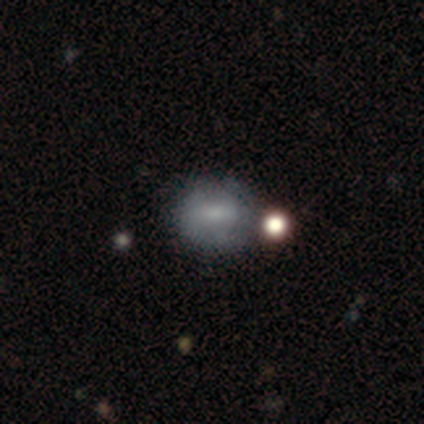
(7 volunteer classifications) Smooth or featured? 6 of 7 (86%) said smooth. How rounded? 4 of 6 (67%) said round. Merging? 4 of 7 (57%) said none.